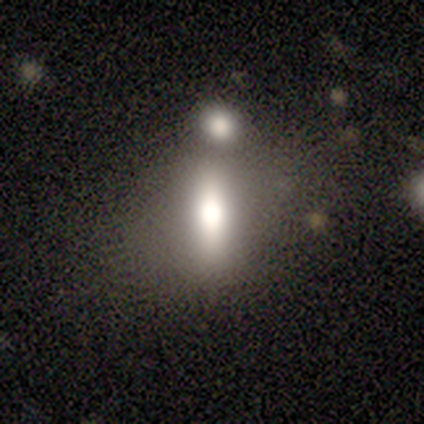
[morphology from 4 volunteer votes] type=featured or disk (50%); edge-on=yes (50%, tied with no); edge-on bulge=none (100%); merging=none (33%, tied with minor disturbance and merger).